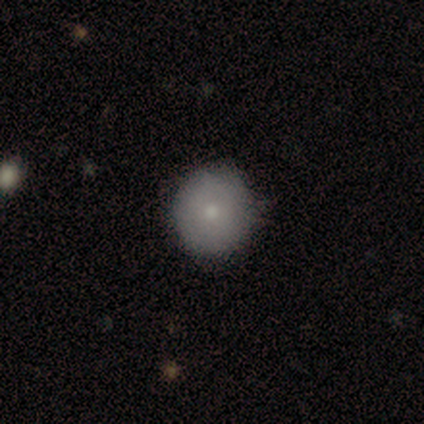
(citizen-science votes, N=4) This appears to be a smooth galaxy with no disk features (50%, tied with featured or disk) that is round (100%). Merging: none (100%).